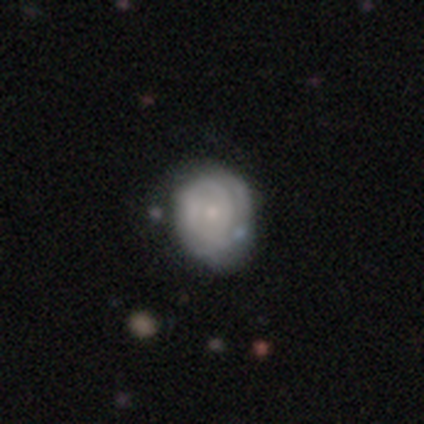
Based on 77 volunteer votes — This appears to be a featured or disk galaxy (69%) with no bar (83%), tight (71%) spiral arms (67%) and a small central bulge (63%). Merging: none (23%).